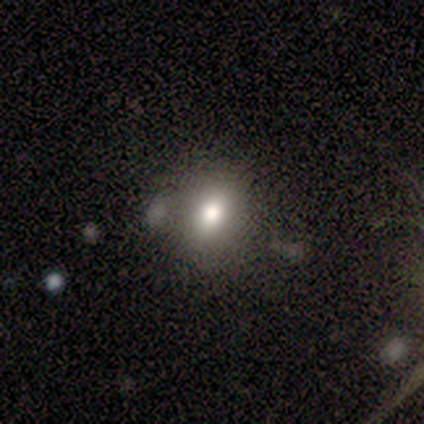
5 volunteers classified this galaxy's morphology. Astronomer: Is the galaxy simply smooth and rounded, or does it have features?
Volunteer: smooth — 60% (runner-up: star or artifact, 40%).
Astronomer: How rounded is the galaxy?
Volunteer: round — 67%.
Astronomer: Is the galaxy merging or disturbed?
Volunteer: none — 67%.